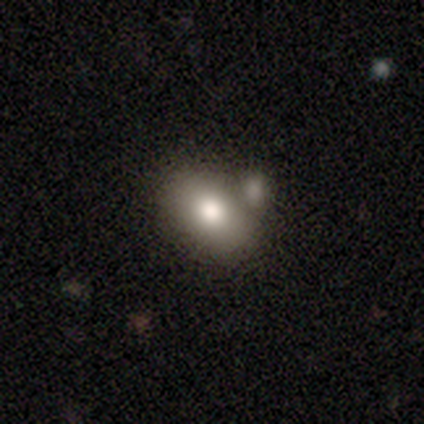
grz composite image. It shows a smooth galaxy with no disk features (78%) that is in between round and cigar-shaped (71%). Merging: merger (44%).